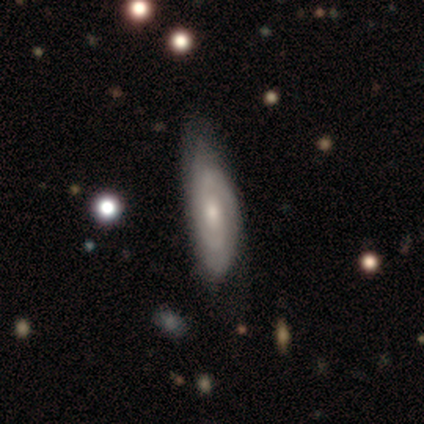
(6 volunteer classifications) smooth 50% (tied), featured or disk 50% (tied), star or artifact 0%. Down the decision tree: how rounded — in between (67%); merging — none (83%).